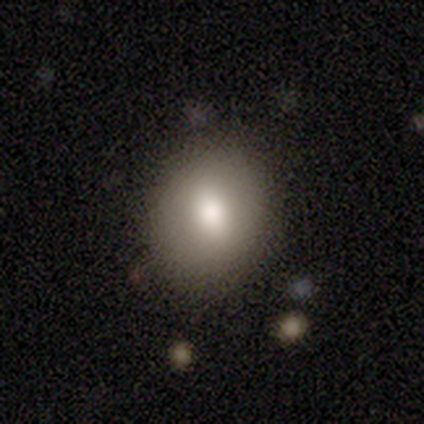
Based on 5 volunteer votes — Volunteers were most divided on "how rounded": in between: 60%, round: 40%, cigar-shaped: 0%. More confident: smooth or featured — smooth (100%); merging — none (100%).